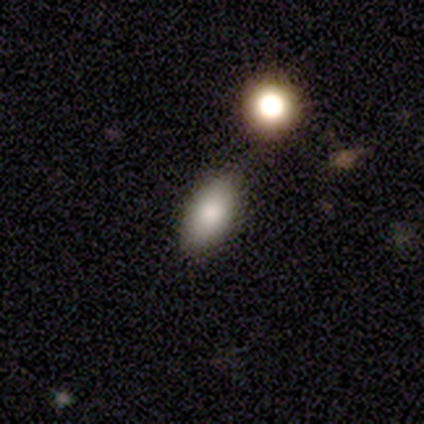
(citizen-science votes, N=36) smooth_or_featured: smooth (p=0.75) [alt: star or artifact p=0.14]
how_rounded: in between (p=0.85) [alt: cigar-shaped p=0.11]
merging: none (p=0.77) [alt: minor disturbance p=0.16]